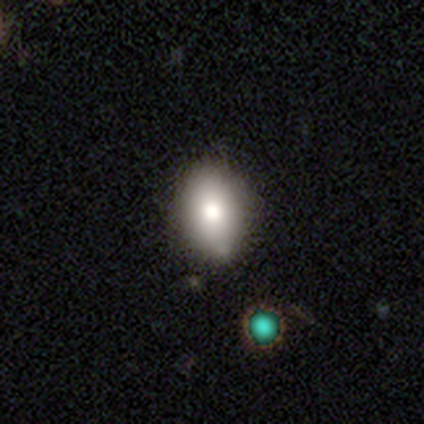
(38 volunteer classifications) This appears to be a smooth galaxy with no disk features (71%) that is in between round and cigar-shaped (81%). Merging: none (56%).